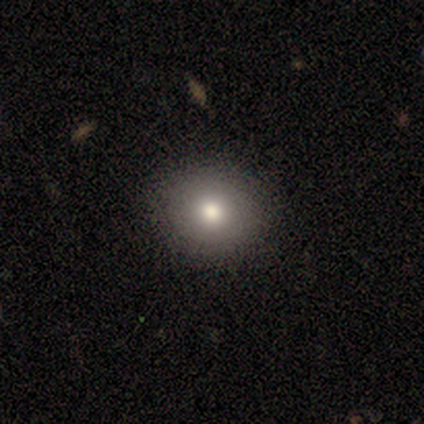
smooth-or-featured: smooth: 55% | featured or disk: 36% | star or artifact: 9%
  how-rounded: round: 50% (tied) | in between: 50% (tied) | cigar-shaped: 0%
  merging: none: 100% | minor disturbance: 0% | major disturbance: 0% | merger: 0%